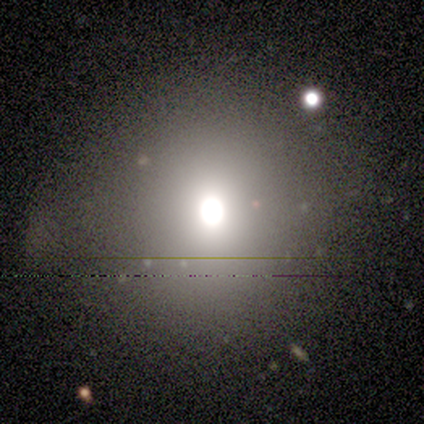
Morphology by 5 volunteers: type=smooth (80%); roundness=round (50%, tied with in between); merging=none (100%).